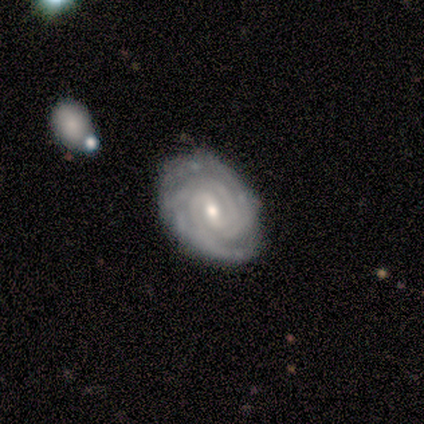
smooth_or_featured: featured or disk (p=0.93) [alt: smooth p=0.07]
disk_edge_on: no (p=0.92) [alt: yes p=0.08]
bar: weak (p=0.58) [alt: no p=0.25]
has_spiral_arms: yes (p=1.00)
spiral_winding: tight (p=0.75) [alt: medium p=0.17]
spiral_arm_count: 4 (p=0.42) [alt: can't tell p=0.25]
bulge_size: moderate (p=0.58) [alt: small p=0.42]
merging: none (p=0.71) [alt: minor disturbance p=0.29]